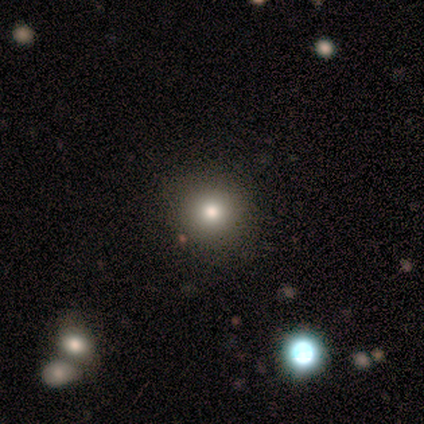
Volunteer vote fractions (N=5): Overall: star or artifact (60%; smooth 40%).